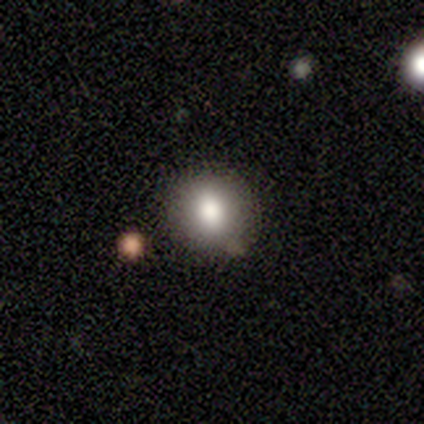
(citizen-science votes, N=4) This is clearly a smooth galaxy (100%). How rounded: likely round (75%). Merging: possibly none (50%, tied with minor disturbance).